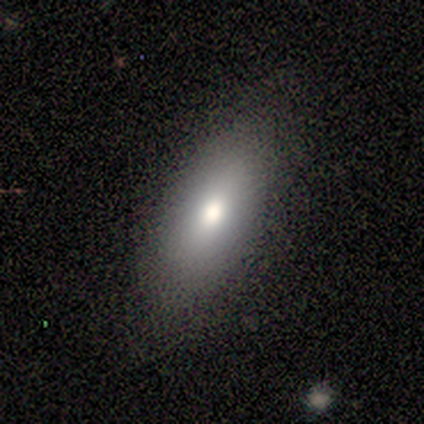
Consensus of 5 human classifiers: smooth-or-featured: smooth: 100% | featured or disk: 0% | star or artifact: 0%
  how-rounded: in between: 100% | round: 0% | cigar-shaped: 0%
  merging: none: 100% | minor disturbance: 0% | major disturbance: 0% | merger: 0%